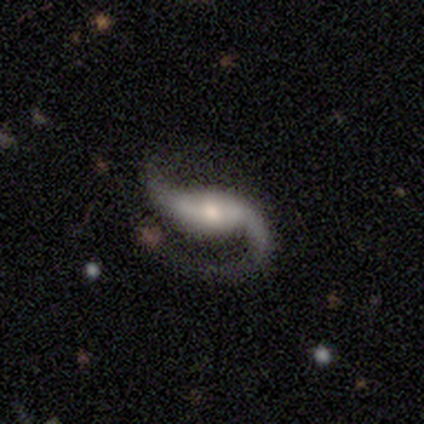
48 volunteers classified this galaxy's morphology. Volunteers were most divided on "bar": strong: 40%, weak: 36%, no: 24%. More confident: spiral arms — yes (98%); spiral arm count — 2 (95%); smooth or featured — featured or disk (94%); edge-on disk — no (93%); merging — none (72%); spiral winding — loose (54%); bulge size — moderate (52%).